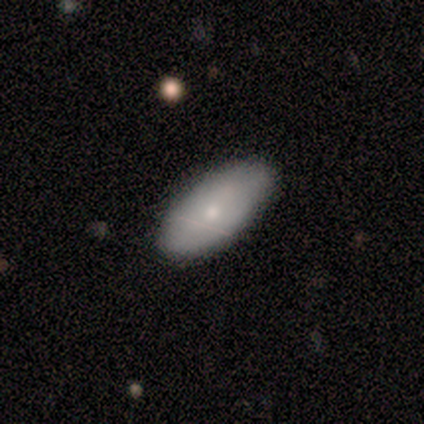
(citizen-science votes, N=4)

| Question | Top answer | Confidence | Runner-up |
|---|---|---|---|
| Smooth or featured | smooth | 75% | featured or disk (25%) |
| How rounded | in between | 67% | cigar-shaped (33%) |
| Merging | none | 50% | minor disturbance (25%) |